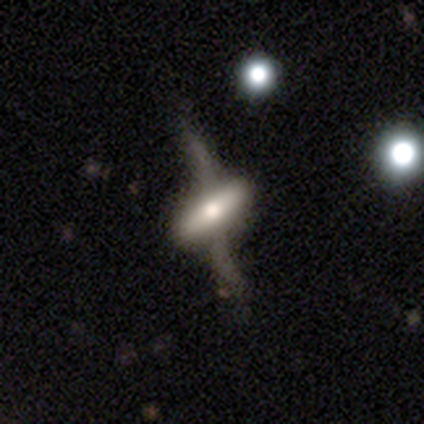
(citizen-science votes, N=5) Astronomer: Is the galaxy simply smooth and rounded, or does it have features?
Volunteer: featured or disk — 80%.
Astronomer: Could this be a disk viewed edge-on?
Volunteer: yes — 75%.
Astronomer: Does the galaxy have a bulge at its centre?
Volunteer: rounded — 67%.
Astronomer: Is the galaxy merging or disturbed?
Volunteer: none — 40% (runner-up: minor disturbance, 20%).